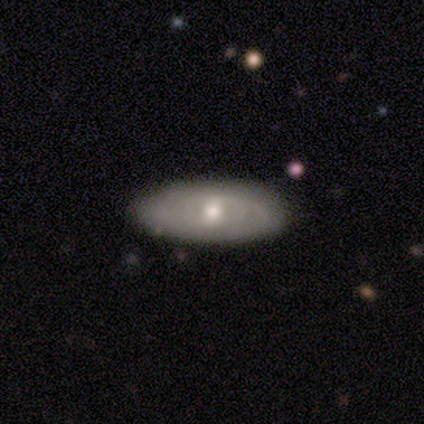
Q: Smooth or featured?
A: featured or disk (72%); runner-up: smooth (22%)
Q: Edge-on disk?
A: no (97%); runner-up: yes (3%)
Q: Bar?
A: no (64%); runner-up: weak (36%)
Q: Spiral arms?
A: yes (75%); runner-up: no (25%)
Q: Spiral winding?
A: tight (67%); runner-up: medium (24%)
Q: Spiral arm count?
A: can't tell (76%); runner-up: 2 (19%)
Q: Bulge size?
A: moderate (68%); runner-up: small (25%)
Q: Merging?
A: none (66%); runner-up: minor disturbance (11%)